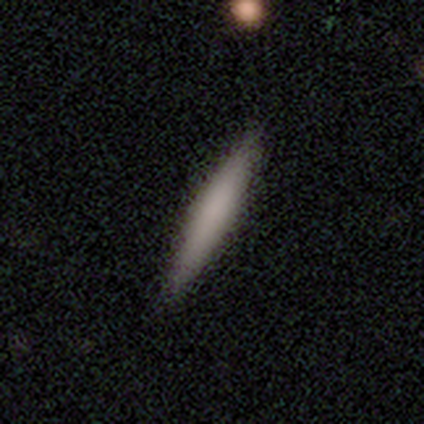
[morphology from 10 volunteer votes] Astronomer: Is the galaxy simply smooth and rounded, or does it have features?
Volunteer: smooth — 80%.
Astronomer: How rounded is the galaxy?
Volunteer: cigar-shaped — 100%.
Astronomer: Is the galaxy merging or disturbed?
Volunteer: none — 80%.